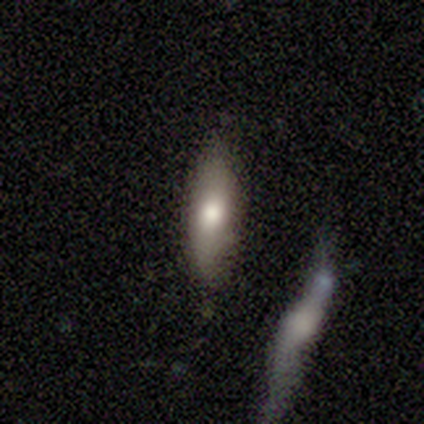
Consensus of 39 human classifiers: Q: Smooth or featured?
A: smooth (72%); runner-up: featured or disk (21%)
Q: How rounded?
A: cigar-shaped (68%); runner-up: in between (29%)
Q: Merging?
A: none (81%); runner-up: minor disturbance (14%)